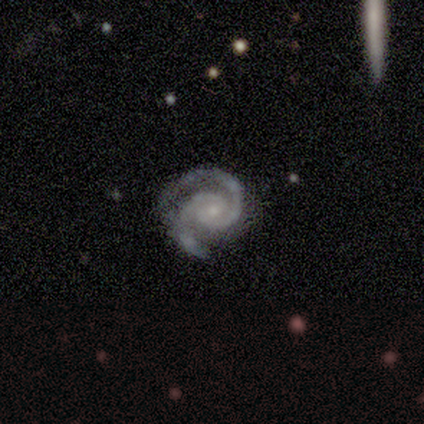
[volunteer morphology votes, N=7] featured or disk 86%, smooth 14%, star or artifact 0%. Down the decision tree: edge-on disk — no (100%); bar — no (50%); spiral arms — yes (100%); spiral arm count — 2 (83%); spiral winding — tight (67%); bulge size — small (83%); merging — none (100%).